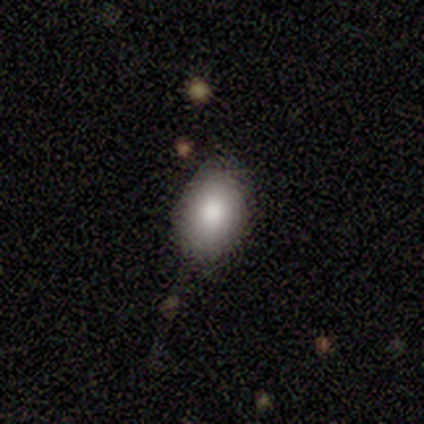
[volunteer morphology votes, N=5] Smooth or featured: smooth — 100%
How rounded: in between — 80% (round — 20%)
Merging: none — 100%